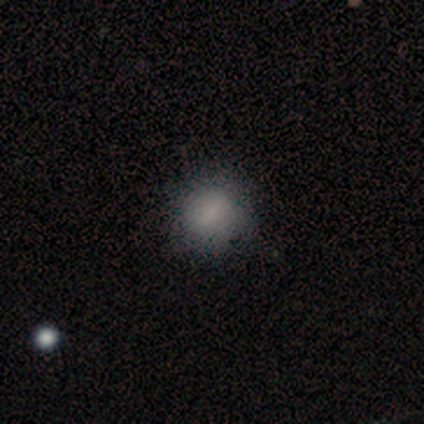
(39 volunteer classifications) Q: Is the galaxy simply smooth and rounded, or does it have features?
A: smooth — 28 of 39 (72%).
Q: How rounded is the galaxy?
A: round — 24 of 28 (86%).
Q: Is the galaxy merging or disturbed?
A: none — 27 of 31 (87%).